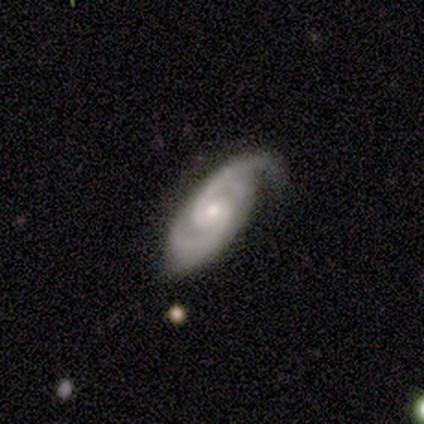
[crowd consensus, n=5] Smooth or featured? 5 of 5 (100%) said featured or disk. Edge-on disk? 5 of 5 (100%) said no. Bar? 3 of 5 (60%) said no. Spiral arms? 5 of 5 (100%) said yes. Spiral winding? 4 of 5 (80%) said medium. Spiral arm count? 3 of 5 (60%) said 2. Bulge size? 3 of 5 (60%) said small. Merging? 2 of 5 (40%, tied with minor disturbance) said none.